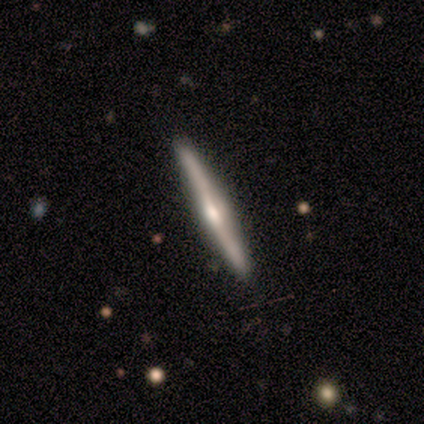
Q: Smooth or featured?
A: featured or disk (100%)
Q: Edge-on disk?
A: yes (100%)
Q: Edge-on bulge?
A: rounded (100%)
Q: Merging?
A: none (100%)